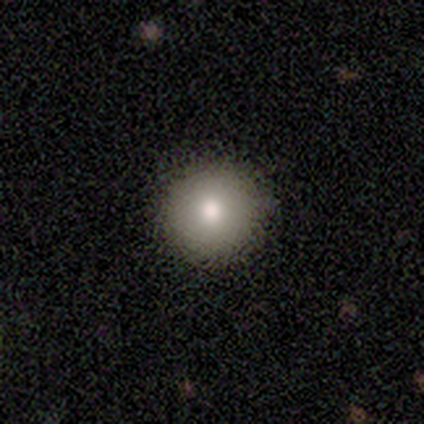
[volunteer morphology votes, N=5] smooth 80%, star or artifact 20%, featured or disk 0%. Down the decision tree: how rounded — round (100%); merging — none (100%).